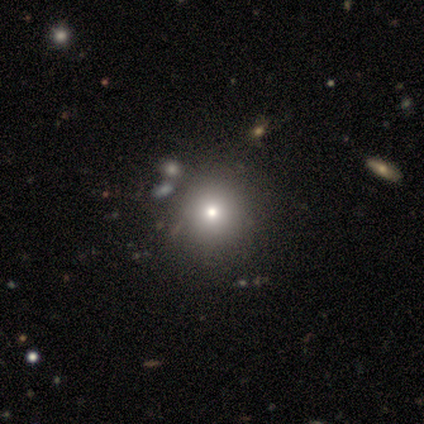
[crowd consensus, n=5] Smooth or featured? smooth (40%, tied with featured or disk)
How rounded? round (100%)
Merging? none (50%, tied with merger)